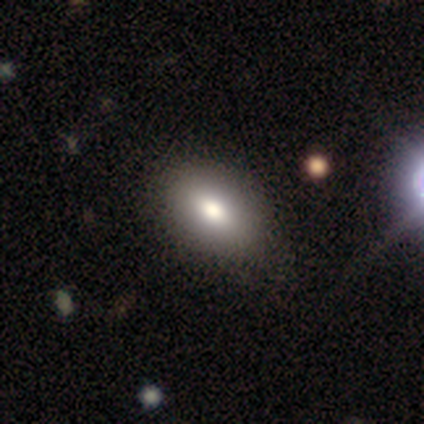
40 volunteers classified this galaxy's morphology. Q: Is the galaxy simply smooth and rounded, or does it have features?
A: smooth — 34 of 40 (85%).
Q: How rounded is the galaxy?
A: in between — 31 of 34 (91%).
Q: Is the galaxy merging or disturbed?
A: none — 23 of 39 (59%).